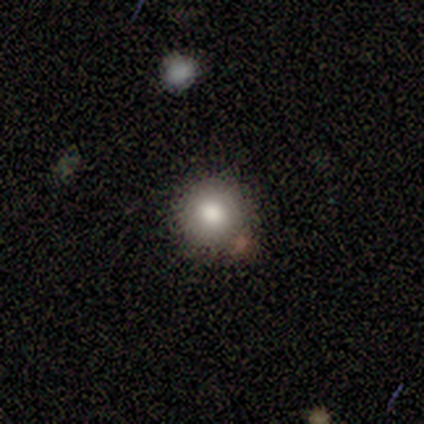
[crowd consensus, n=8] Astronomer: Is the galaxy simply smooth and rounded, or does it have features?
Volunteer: smooth — 62%.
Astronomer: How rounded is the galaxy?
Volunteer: round — 100%.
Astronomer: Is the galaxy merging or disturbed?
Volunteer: none — 57%.